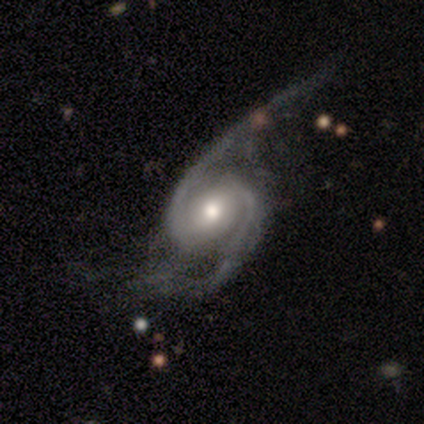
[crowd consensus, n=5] Morphology: type=featured or disk (100%); edge-on=no (100%); bar=no (60%); spiral arms=yes (100%); winding=tight (40%, tied with medium); arm count=2 (100%); bulge=moderate (40%, tied with small); merging=none (40%, tied with minor disturbance).